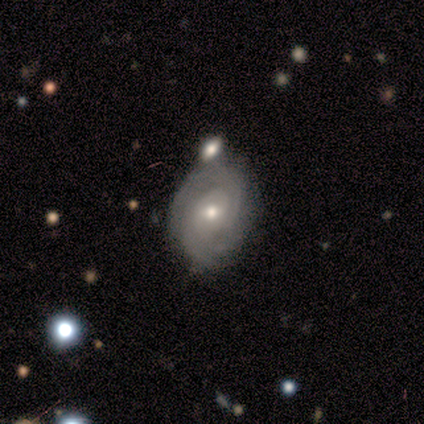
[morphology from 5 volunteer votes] This appears to be a featured or disk galaxy (80%) with no bar (75%), 2 (75%) tight (75%) spiral arms (100%) and a small central bulge (75%). Merging: none (80%).